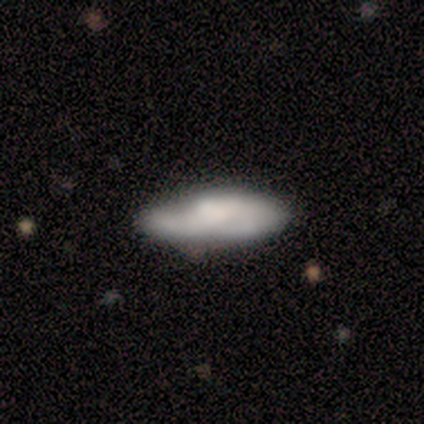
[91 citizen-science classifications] This appears to be a smooth galaxy with no disk features (59%) that is in between round and cigar-shaped (80%). Merging: none (62%).